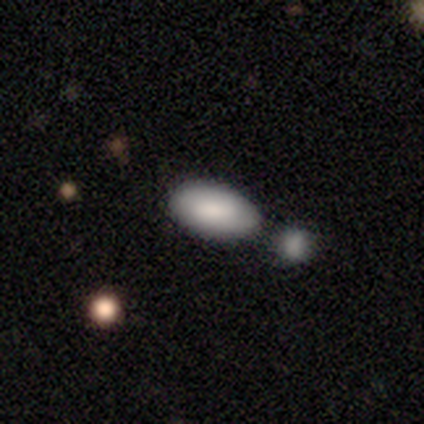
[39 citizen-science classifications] This is clearly a smooth galaxy (82%). How rounded: clearly in between (100%). Merging: likely merger (63%).